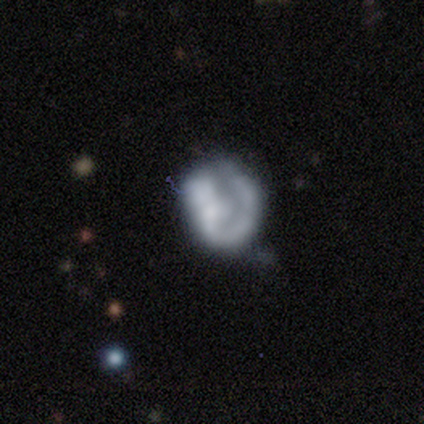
smooth_or_featured: featured or disk (p=0.80) [alt: smooth p=0.20]
disk_edge_on: no (p=1.00)
bar: no (p=1.00)
has_spiral_arms: no (p=0.75) [alt: yes p=0.25]
bulge_size: none (p=0.75) [alt: small p=0.25]
merging: minor disturbance (p=0.40) [alt: none p=0.20]